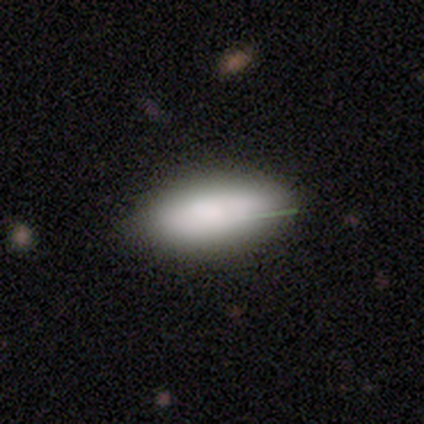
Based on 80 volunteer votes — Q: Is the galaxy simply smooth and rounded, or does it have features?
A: smooth — 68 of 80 (85%).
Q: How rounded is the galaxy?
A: in between — 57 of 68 (84%).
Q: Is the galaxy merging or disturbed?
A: none — 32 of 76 (42%).